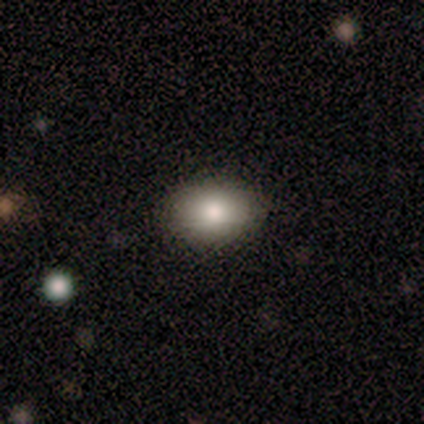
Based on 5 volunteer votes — smooth 80%, featured or disk 20%, star or artifact 0%. Down the decision tree: how rounded — in between (100%); merging — none (100%).